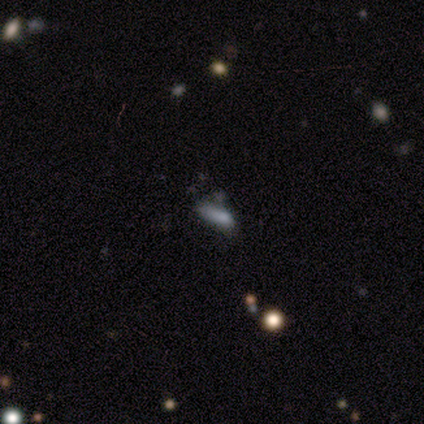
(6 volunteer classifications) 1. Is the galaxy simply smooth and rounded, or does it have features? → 50% smooth, 33% featured or disk, 17% star or artifact.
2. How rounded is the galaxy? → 67% in between, 33% cigar-shaped, 0% round.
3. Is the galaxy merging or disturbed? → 60% none, 20% minor disturbance, 20% major disturbance, 0% merger.